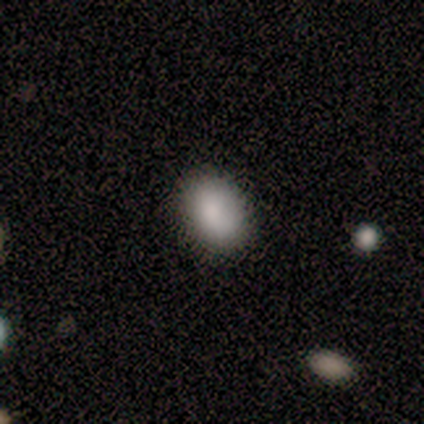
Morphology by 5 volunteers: Smooth or featured?
  - smooth: 100% *
  - featured or disk: 0%
  - star or artifact: 0%
How rounded?
  - in between: 80% *
  - round: 20%
  - cigar-shaped: 0%
Merging?
  - none: 100% *
  - minor disturbance: 0%
  - major disturbance: 0%
  - merger: 0%